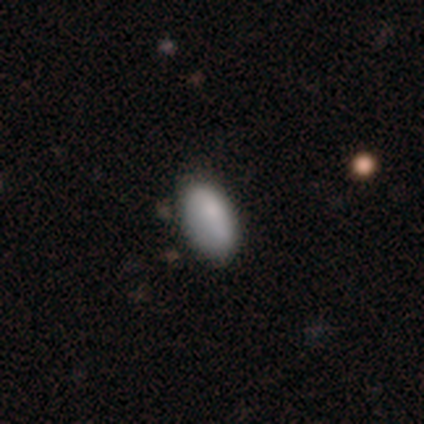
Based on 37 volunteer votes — Smooth or featured? 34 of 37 (92%) said smooth. How rounded? 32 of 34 (94%) said in between. Merging? 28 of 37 (76%) said none.